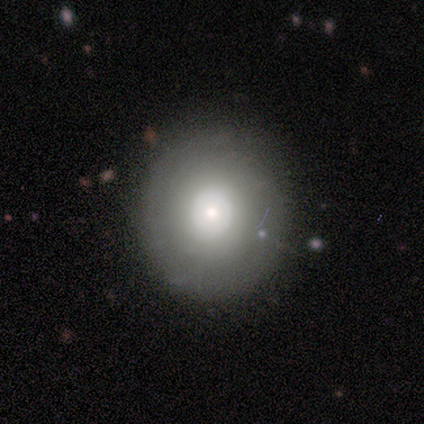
A smooth galaxy with no disk features (50%) that is round (50%, tied with in between). Merging: none (67%).